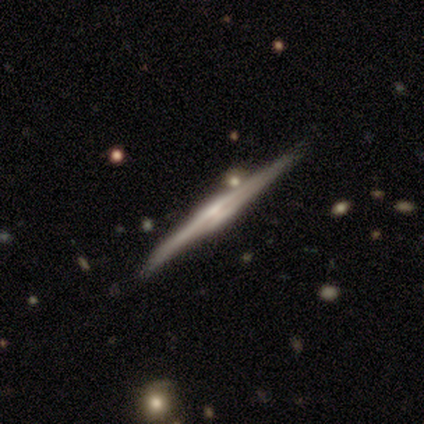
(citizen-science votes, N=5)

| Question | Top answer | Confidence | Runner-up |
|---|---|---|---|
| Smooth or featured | featured or disk | 100% | — |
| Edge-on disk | yes | 100% | — |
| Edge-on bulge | none | 40% | tied: rounded (40%) |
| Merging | none | 100% | — |